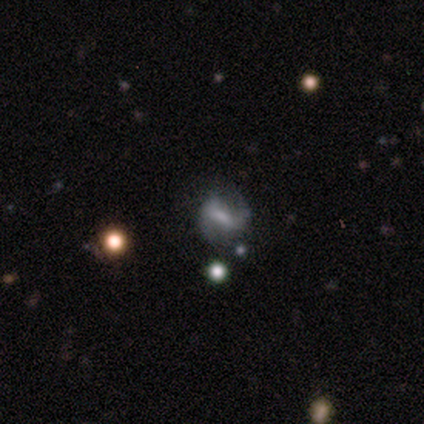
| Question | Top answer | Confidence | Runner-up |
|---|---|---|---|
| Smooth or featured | featured or disk | 80% | smooth (20%) |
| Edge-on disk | no | 100% | — |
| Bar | strong | 75% | weak (25%) |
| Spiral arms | yes | 100% | — |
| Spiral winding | loose | 75% | medium (25%) |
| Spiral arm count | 2 | 100% | — |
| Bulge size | small | 50% | moderate (25%) |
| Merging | none | 60% | minor disturbance (20%) |